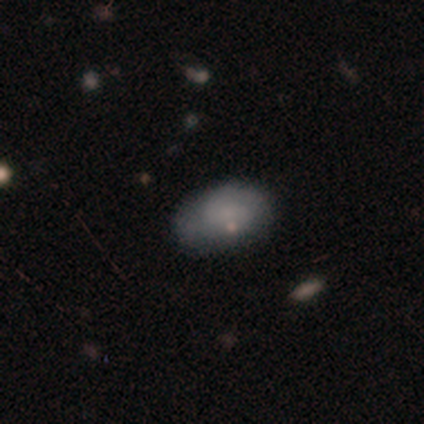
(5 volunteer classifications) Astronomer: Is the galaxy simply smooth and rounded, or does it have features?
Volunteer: smooth — 80%.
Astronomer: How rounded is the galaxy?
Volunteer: in between — 75%.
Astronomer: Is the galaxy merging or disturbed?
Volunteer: none — 60% (runner-up: minor disturbance, 40%).